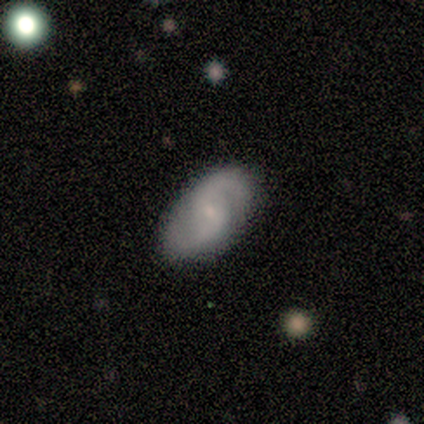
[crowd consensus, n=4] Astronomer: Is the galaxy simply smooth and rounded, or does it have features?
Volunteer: featured or disk — 100%.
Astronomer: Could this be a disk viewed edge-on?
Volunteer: no — 100%.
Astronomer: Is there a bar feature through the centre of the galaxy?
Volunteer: weak — 50%, tied with no at 50%.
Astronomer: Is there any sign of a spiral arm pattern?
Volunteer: yes — 100%.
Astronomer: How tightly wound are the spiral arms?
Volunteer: medium — 75%.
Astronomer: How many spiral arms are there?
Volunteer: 2 — 75%.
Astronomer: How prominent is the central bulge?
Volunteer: small — 75%.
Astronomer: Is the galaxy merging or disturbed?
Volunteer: none — 75%.